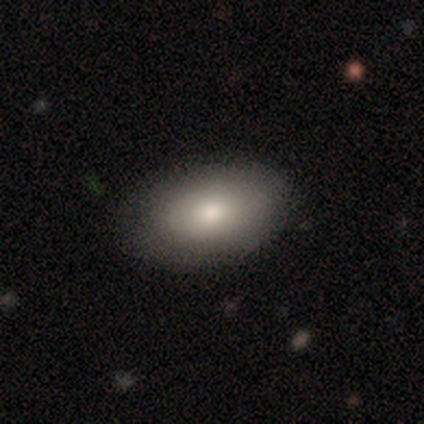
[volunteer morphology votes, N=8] smooth 75%, featured or disk 12%, star or artifact 12%. Down the decision tree: how rounded — in between (83%); merging — none (71%).